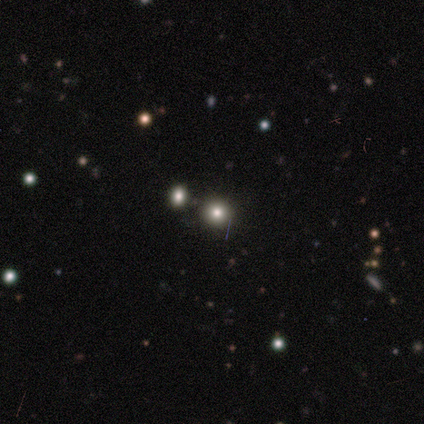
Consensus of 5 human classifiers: Volunteers were most divided on "smooth or featured": smooth: 60%, featured or disk: 20%, star or artifact: 20%. More confident: how rounded — round (100%); merging — none (75%).